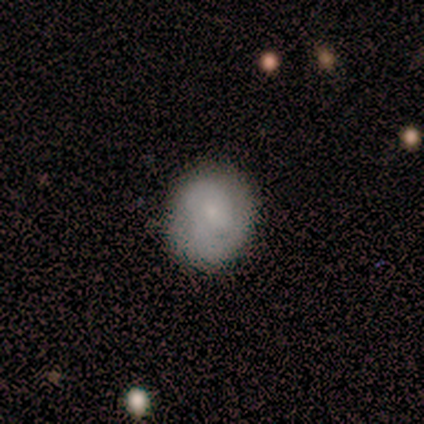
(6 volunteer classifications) This appears to be a smooth galaxy with no disk features (100%) that is round (83%). Merging: none (83%).